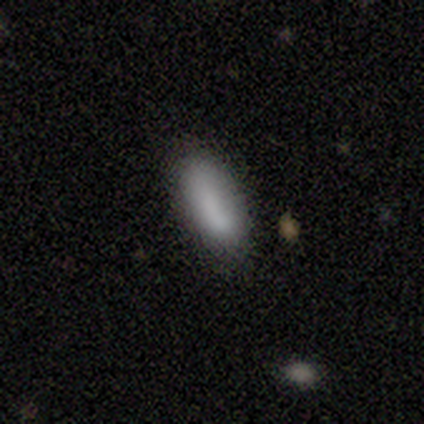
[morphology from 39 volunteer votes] Smooth or featured? 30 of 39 (77%) said smooth. How rounded? 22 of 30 (73%) said in between. Merging? 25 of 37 (68%) said none.